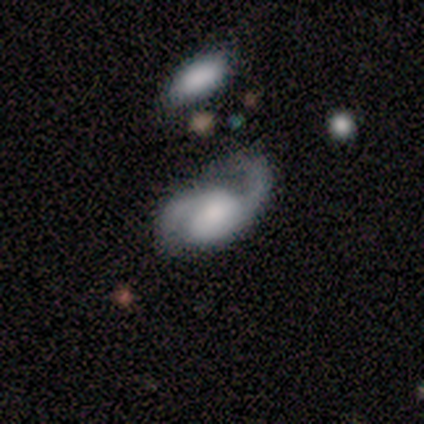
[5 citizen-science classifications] Smooth or featured? featured or disk (100%)
Edge-on disk? no (100%)
Bar? no (80%)
Spiral arms? yes (80%)
Spiral winding? medium (75%)
Spiral arm count? 2 (100%)
Bulge size? moderate (40%)
Merging? major disturbance (60%)